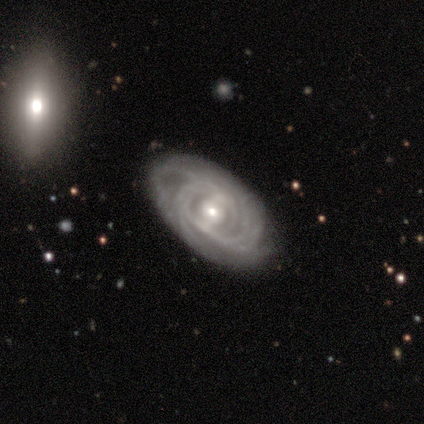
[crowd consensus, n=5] Smooth or featured? featured or disk (80%)
Edge-on disk? no (100%)
Bar? strong (50%, tied with no)
Spiral arms? yes (100%)
Spiral winding? tight (100%)
Spiral arm count? can't tell (75%)
Bulge size? moderate (50%, tied with small)
Merging? none (60%)